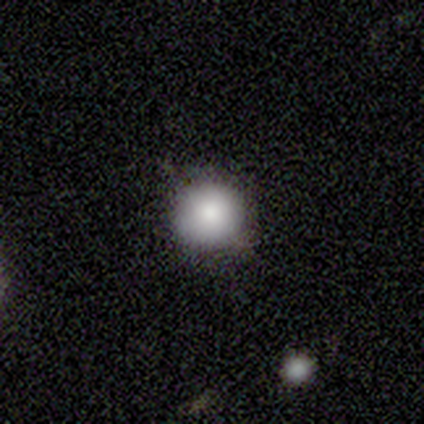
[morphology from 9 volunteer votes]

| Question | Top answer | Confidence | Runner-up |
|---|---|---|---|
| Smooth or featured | smooth | 67% | star or artifact (22%) |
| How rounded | round | 67% | in between (33%) |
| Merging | none | 71% | minor disturbance (29%) |